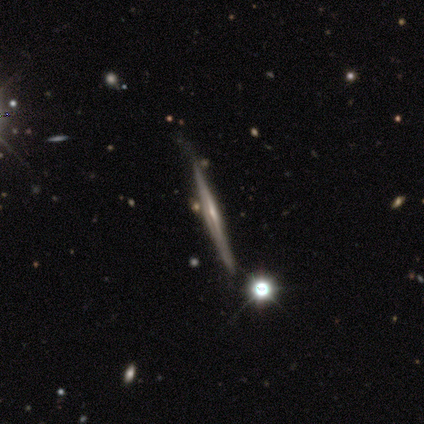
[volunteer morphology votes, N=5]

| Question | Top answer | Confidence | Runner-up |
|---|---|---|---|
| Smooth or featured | featured or disk | 60% | smooth (20%) |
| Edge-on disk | yes | 100% | — |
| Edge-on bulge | none | 67% | rounded (33%) |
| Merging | none | 100% | — |